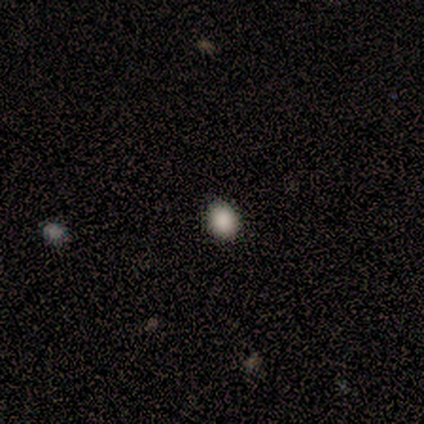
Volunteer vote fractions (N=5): Smooth or featured? 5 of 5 (100%) said smooth. How rounded? 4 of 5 (80%) said round. Merging? 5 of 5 (100%) said none.